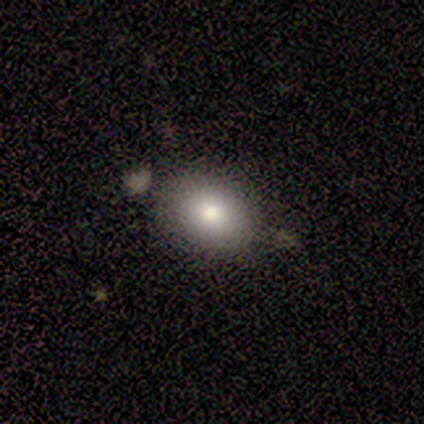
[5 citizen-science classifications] Smooth or featured? smooth (100%)
How rounded? in between (80%)
Merging? none (60%)